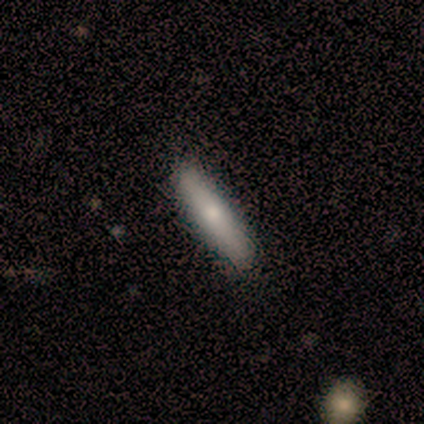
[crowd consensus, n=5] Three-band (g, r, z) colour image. It shows a smooth galaxy with no disk features (60%) that is in between round and cigar-shaped (67%). Merging: none (100%).